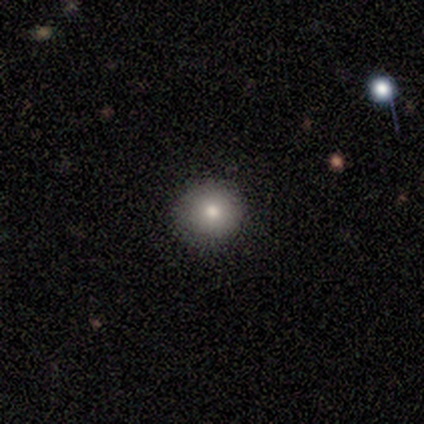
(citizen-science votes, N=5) Smooth or featured? 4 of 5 (80%) said smooth. How rounded? 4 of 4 (100%) said round. Merging? 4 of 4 (100%) said none.